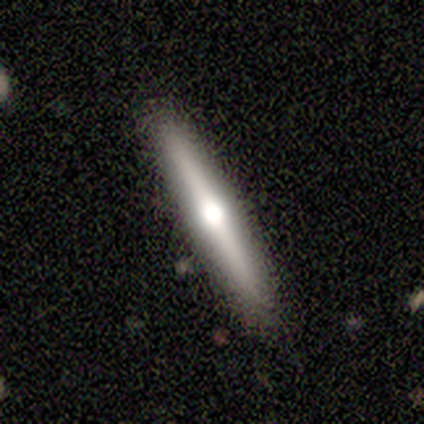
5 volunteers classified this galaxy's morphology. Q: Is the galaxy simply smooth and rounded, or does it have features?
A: featured or disk — 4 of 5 (80%).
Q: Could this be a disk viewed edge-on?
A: yes — 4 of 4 (100%).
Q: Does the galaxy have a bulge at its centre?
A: rounded — 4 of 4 (100%).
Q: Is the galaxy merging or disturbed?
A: none — 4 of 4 (100%).